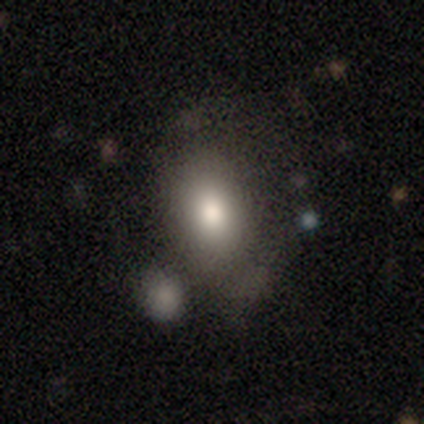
This appears to be a smooth galaxy with no disk features (86%) that is in between round and cigar-shaped (86%). Merging: none (41%).